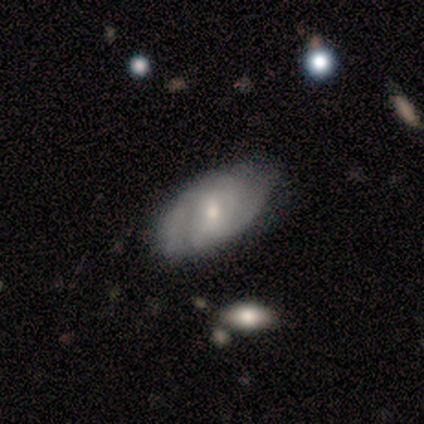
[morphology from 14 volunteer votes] Volunteers were most divided on "spiral arm count" (2-way tie): 2: 43%, can't tell: 43%, 3: 14%, 1: 0%, 4: 0%, more than 4: 0%; "bulge size" (2-way tie): moderate: 50%, small: 50%, dominant: 0%, large: 0%, none: 0%. More confident: edge-on disk — no (89%); spiral arms — yes (88%); merging — none (69%); smooth or featured — featured or disk (64%); spiral winding — tight (57%); bar — no (50%).